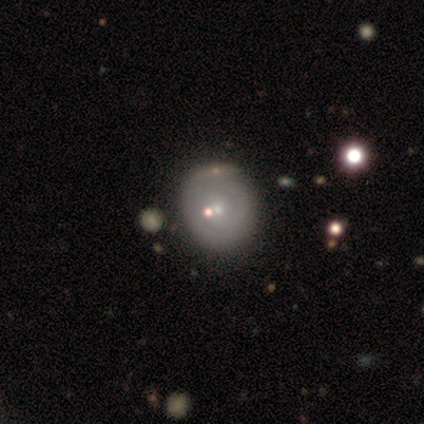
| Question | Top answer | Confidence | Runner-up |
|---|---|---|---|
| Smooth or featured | featured or disk | 59% | smooth (38%) |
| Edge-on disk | no | 100% | — |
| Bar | no | 74% | weak (22%) |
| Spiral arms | yes | 61% | no (39%) |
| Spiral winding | tight | 57% | medium (29%) |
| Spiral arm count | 2 | 64% | can't tell (29%) |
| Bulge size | small | 83% | moderate (13%) |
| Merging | none | 47% | merger (21%) |